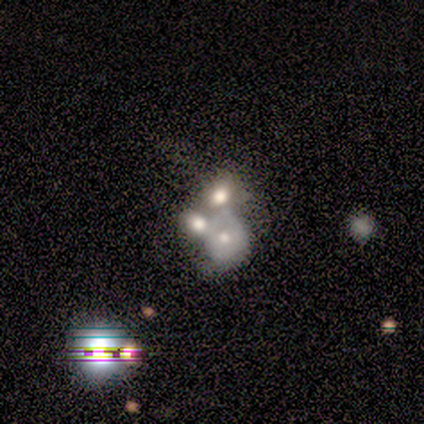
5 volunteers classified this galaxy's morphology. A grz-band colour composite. It shows a smooth galaxy with no disk features (40%, tied with star or artifact) that is round (100%). Merging: minor disturbance (33%, tied with major disturbance and merger).